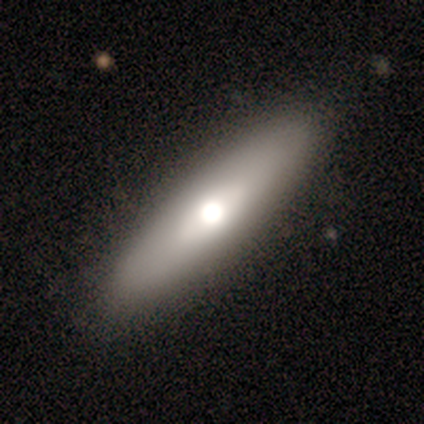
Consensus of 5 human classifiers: A featured or disk galaxy (60%) viewed edge-on (67%) with a rounded central bulge (100%). Merging: none (100%).